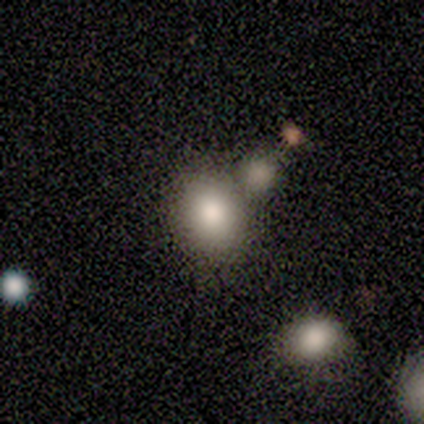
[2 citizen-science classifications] smooth_or_featured: smooth (p=1.00)
how_rounded: round (p=0.50) [tied with: in between p=0.50]
merging: none (p=1.00)